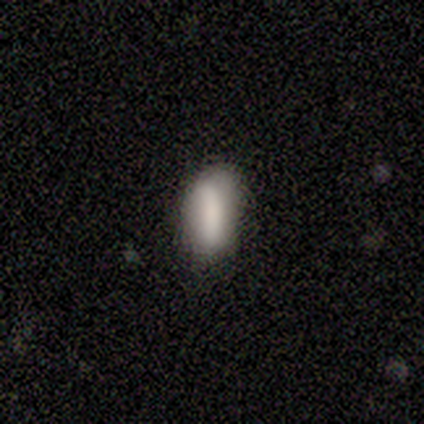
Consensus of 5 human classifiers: smooth_or_featured: smooth (p=1.00)
how_rounded: in between (p=1.00)
merging: none (p=0.60) [alt: minor disturbance p=0.40]